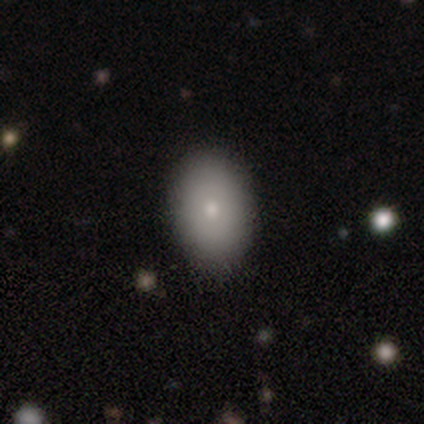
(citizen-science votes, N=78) Smooth or featured? 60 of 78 (77%) said smooth. How rounded? 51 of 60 (85%) said in between. Merging? 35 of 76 (46%) said none.